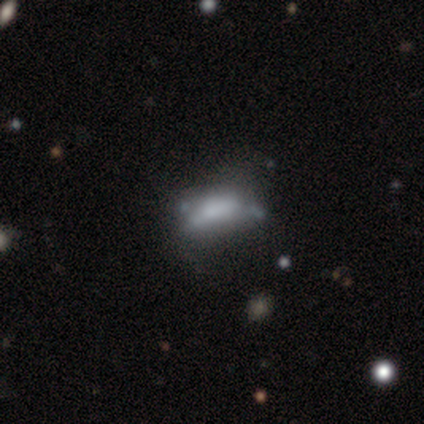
Smooth or featured: smooth — 60% (featured or disk — 40%)
How rounded: in between — 67% (cigar-shaped — 33%)
Merging: none — 40% (tied with minor disturbance — 40%)